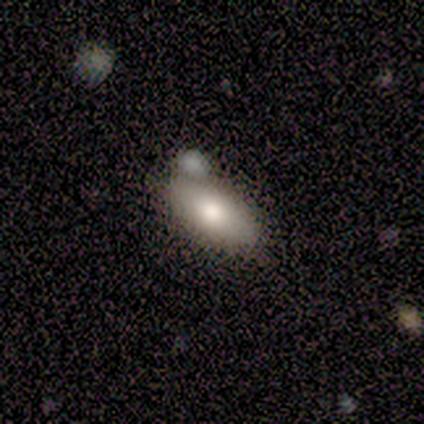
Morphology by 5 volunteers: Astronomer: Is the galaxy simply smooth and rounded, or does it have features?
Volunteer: smooth — 40%, tied with featured or disk at 40%.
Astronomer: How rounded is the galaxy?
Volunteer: in between — 100%.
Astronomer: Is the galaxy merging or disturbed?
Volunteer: none — 75%.